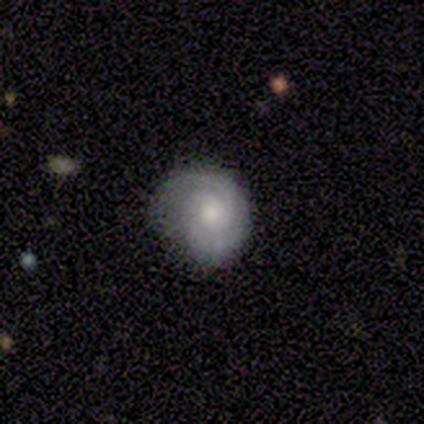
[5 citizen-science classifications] Volunteers were most divided on "smooth or featured": smooth: 60%, featured or disk: 40%, star or artifact: 0%. More confident: how rounded — round (67%); merging — major disturbance (60%).